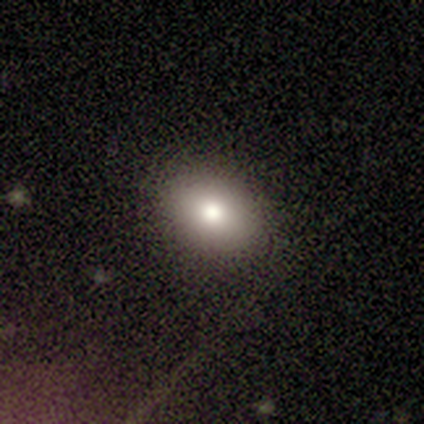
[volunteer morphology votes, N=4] Smooth or featured? smooth (75%)
How rounded? in between (67%)
Merging? none (100%)